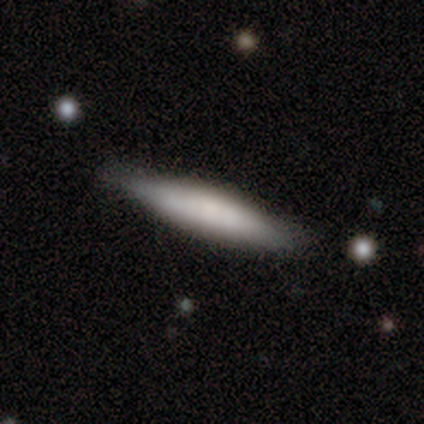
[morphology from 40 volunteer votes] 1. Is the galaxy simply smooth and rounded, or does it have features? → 57% smooth, 38% featured or disk, 5% star or artifact.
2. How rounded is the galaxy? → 96% cigar-shaped, 4% in between, 0% round.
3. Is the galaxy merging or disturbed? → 84% none, 13% minor disturbance, 3% merger, 0% major disturbance.